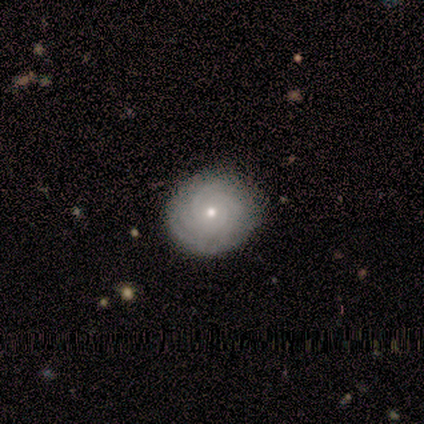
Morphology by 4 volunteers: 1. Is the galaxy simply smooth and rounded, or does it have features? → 100% featured or disk, 0% smooth, 0% star or artifact.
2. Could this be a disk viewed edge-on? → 100% no, 0% yes.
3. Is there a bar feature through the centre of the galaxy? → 100% no, 0% strong, 0% weak.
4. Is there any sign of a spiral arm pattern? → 100% yes, 0% no.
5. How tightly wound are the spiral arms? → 75% tight, 25% medium, 0% loose.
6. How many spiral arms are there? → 50% 3, 25% 1, 25% 4, 0% 2, 0% more than 4, 0% can't tell.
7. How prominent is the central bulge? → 100% small, 0% dominant, 0% large, 0% moderate, 0% none.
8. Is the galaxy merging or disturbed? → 100% none, 0% minor disturbance, 0% major disturbance, 0% merger.